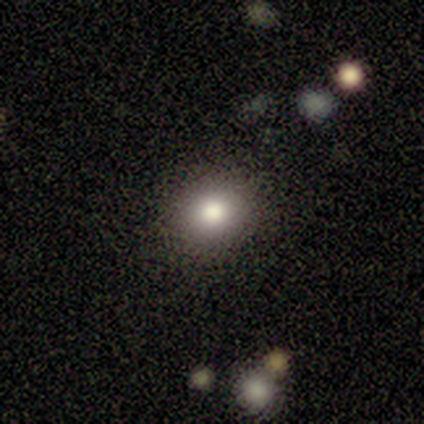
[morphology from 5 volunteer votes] smooth 100%, featured or disk 0%, star or artifact 0%. Down the decision tree: how rounded — round (60%); merging — none (80%).